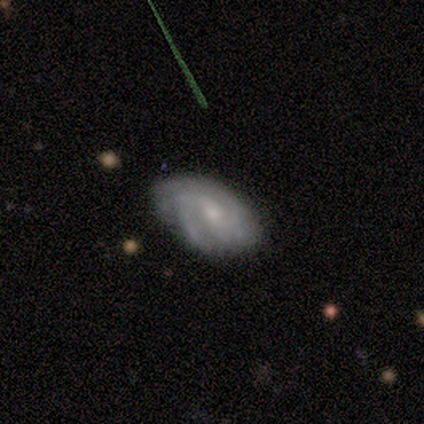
This appears to be a featured or disk galaxy (100%) with no bar (100%), 2 (100%) tight (50%, tied with medium) spiral arms (100%) and a small central bulge (75%). Merging: minor disturbance (75%).